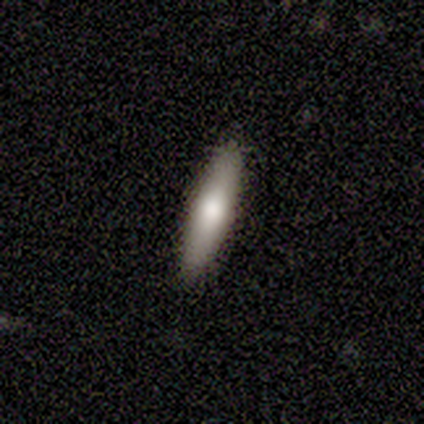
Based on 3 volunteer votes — smooth 67%, featured or disk 33%, star or artifact 0%. Down the decision tree: how rounded — cigar-shaped (100%); merging — none (100%).